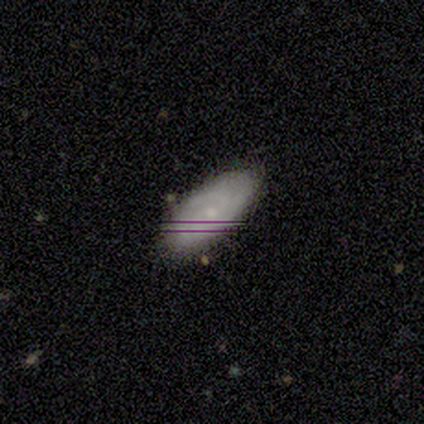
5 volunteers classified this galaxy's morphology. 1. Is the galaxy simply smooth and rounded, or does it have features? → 60% smooth, 20% featured or disk, 20% star or artifact.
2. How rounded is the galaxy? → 100% in between, 0% round, 0% cigar-shaped.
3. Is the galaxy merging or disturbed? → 75% none, 25% minor disturbance, 0% major disturbance, 0% merger.